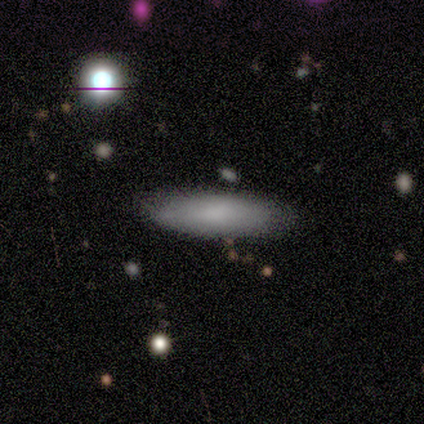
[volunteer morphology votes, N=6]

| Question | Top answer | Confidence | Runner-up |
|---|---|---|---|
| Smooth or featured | smooth | 100% | — |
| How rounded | in between | 67% | round (33%) |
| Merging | none | 67% | minor disturbance (33%) |